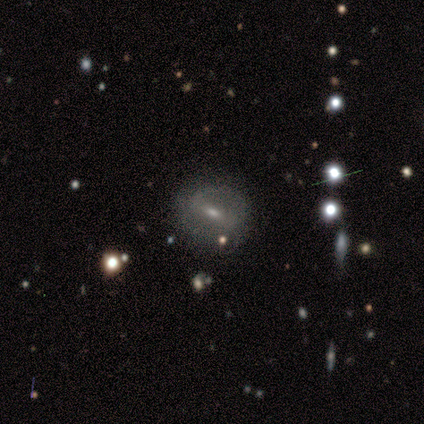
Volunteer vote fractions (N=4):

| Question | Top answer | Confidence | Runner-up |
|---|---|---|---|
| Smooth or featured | featured or disk | 100% | — |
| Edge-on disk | no | 100% | — |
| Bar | no | 50% | strong (25%) |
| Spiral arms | no | 75% | yes (25%) |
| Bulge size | small | 75% | moderate (25%) |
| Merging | minor disturbance | 100% | — |